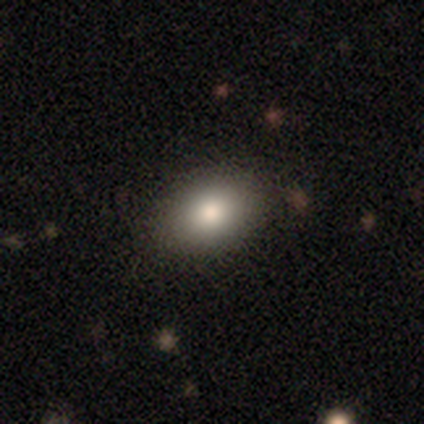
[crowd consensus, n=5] This is clearly a smooth galaxy (100%). How rounded: clearly in between (100%). Merging: clearly none (100%).